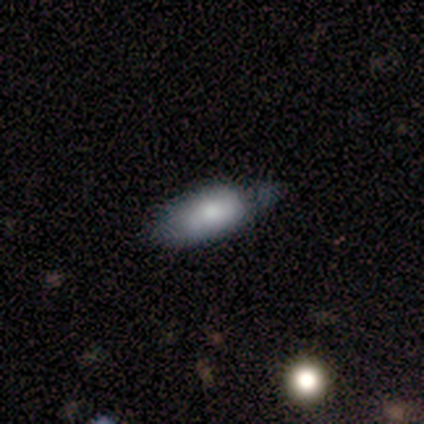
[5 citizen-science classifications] Volunteers were most divided on "smooth or featured" (2-way tie): smooth: 40%, featured or disk: 40%, star or artifact: 20%. More confident: how rounded — in between (100%); merging — minor disturbance (75%).